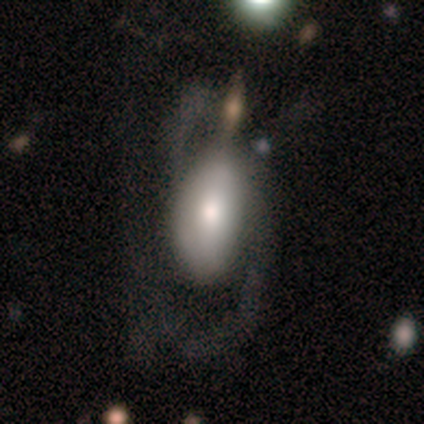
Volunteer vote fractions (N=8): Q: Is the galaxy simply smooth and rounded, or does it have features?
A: featured or disk — 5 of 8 (62%).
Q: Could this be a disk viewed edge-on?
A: no — 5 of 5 (100%).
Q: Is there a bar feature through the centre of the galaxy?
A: no — 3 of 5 (60%).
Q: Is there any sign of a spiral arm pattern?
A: yes — 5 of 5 (100%).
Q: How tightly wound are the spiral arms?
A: loose — 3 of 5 (60%).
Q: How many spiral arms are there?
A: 2 — 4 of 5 (80%).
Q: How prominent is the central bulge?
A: moderate — 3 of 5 (60%).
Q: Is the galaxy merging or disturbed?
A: minor disturbance — 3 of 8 (38%).